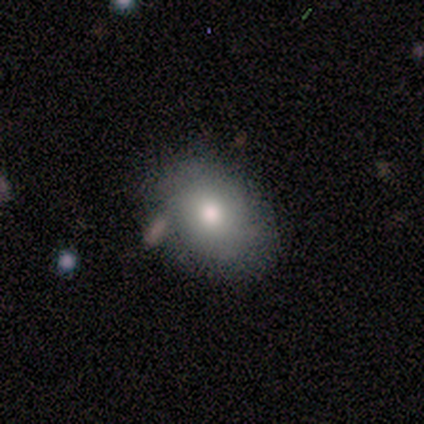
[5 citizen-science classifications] Morphology: type=smooth (80%); roundness=in between (100%); merging=none (80%).